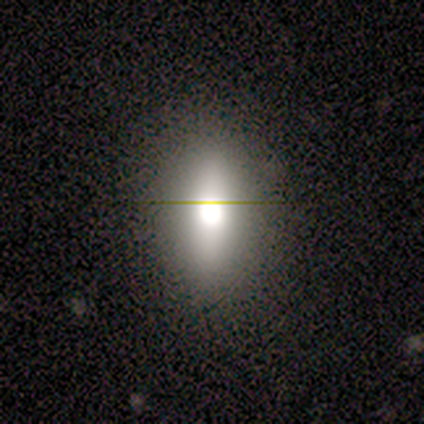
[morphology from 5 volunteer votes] star or artifact 60%, featured or disk 40%, smooth 0%.